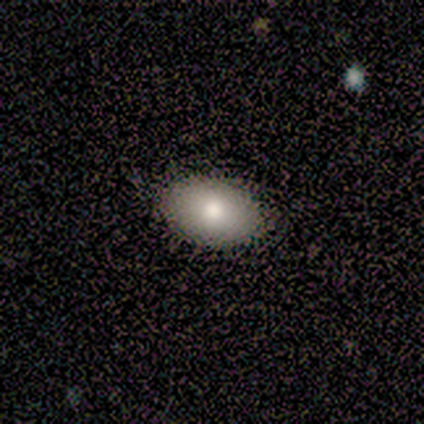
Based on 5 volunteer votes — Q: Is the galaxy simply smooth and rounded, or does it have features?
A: smooth — 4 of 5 (80%).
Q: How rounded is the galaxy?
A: in between — 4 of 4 (100%).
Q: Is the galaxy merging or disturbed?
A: none — 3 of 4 (75%).